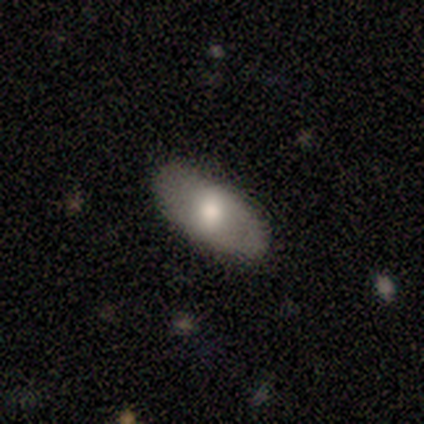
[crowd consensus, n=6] smooth 67%, featured or disk 17%, star or artifact 17%. Down the decision tree: how rounded — in between (75%); merging — none (80%).